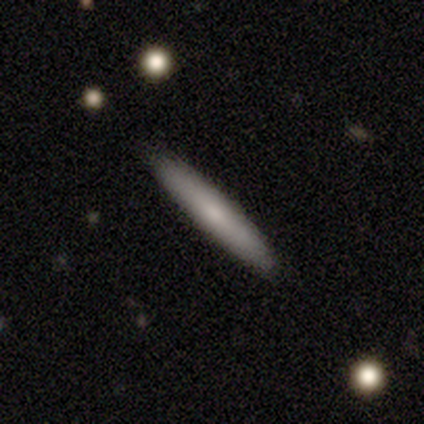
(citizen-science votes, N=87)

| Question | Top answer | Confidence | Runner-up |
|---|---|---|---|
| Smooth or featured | smooth | 62% | featured or disk (30%) |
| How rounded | cigar-shaped | 89% | in between (11%) |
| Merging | none | 90% | minor disturbance (6%) |